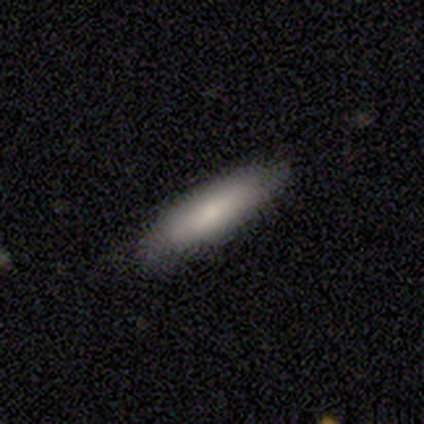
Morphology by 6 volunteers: smooth 67%, featured or disk 33%, star or artifact 0%. Down the decision tree: how rounded — cigar-shaped (75%); merging — none (67%).